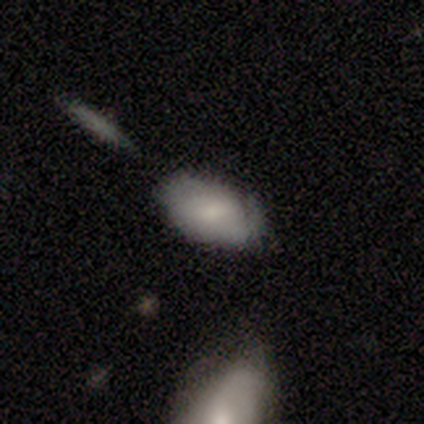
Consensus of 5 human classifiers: Overall: smooth (60%; featured or disk 20%). How rounded: in between (100%). Merging: none (75%).